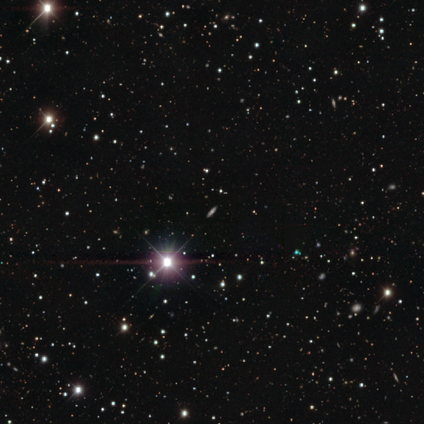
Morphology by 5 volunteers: This is clearly a star or artifact rather than a galaxy (100%).